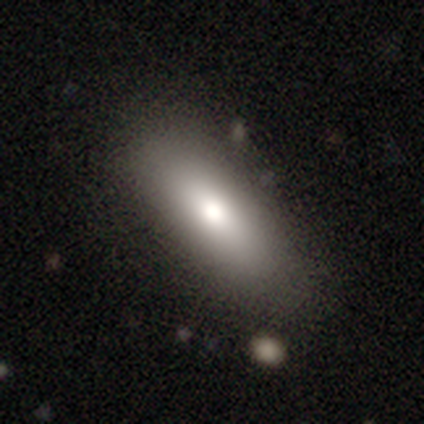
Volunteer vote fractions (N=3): This is clearly a smooth galaxy (100%). How rounded: likely cigar-shaped (67%). Merging: likely none (67%).